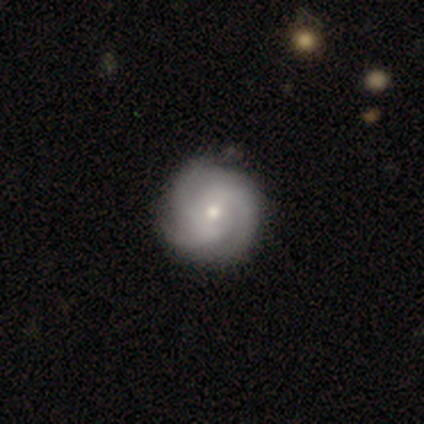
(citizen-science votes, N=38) Smooth or featured: featured or disk — 87% (smooth — 13%)
Edge-on disk: no — 100%
Bar: no — 64% (weak — 30%)
Spiral arms: yes — 100%
Spiral winding: tight — 48% (medium — 42%)
Spiral arm count: 3 — 88% (2 — 6%)
Bulge size: small — 52% (moderate — 33%)
Merging: none — 71% (minor disturbance — 11%)